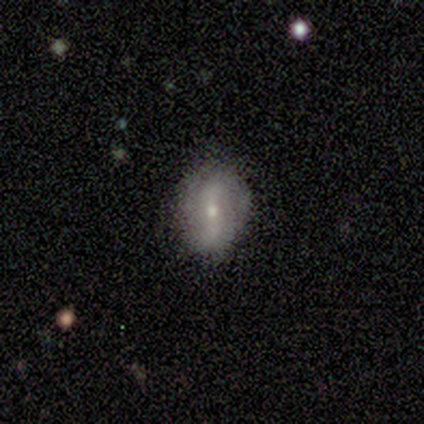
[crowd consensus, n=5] Q: Smooth or featured?
A: featured or disk (80%); runner-up: smooth (20%)
Q: Edge-on disk?
A: no (100%)
Q: Bar?
A: weak (75%); runner-up: no (25%)
Q: Spiral arms?
A: yes (75%); runner-up: no (25%)
Q: Spiral winding?
A: tight (33%); tied with: medium (33%); loose (33%)
Q: Spiral arm count?
A: can't tell (67%); runner-up: 2 (33%)
Q: Bulge size?
A: small (100%)
Q: Merging?
A: none (100%)